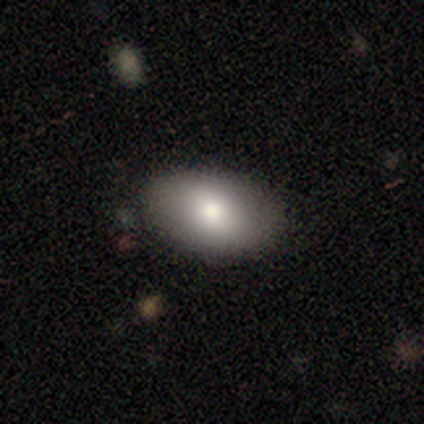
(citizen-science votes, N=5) Smooth or featured: smooth — 80% (featured or disk — 20%)
How rounded: in between — 100%
Merging: none — 100%